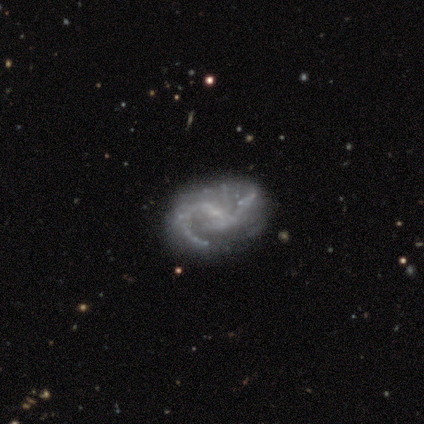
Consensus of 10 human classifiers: A featured or disk galaxy (90%) with a weak bar (78%), 2 (67%) medium (44%) spiral arms (100%) and a small central bulge (56%).

Vote fractions:
- Smooth or featured? featured or disk: 90% / smooth: 10% / star or artifact: 0%
- Edge-on disk? no: 100% / yes: 0%
- Bar? weak: 78% / no: 22% / strong: 0%
- Spiral arms? yes: 100% / no: 0%
- Spiral winding? medium: 44% / tight: 33% / loose: 22%
- Spiral arm count? 2: 67% / 1: 22% / more than 4: 11% / 3: 0% / 4: 0% / can't tell: 0%
- Bulge size? small: 56% / moderate: 22% / none: 22% / dominant: 0% / large: 0%
- Merging? none: 90% / minor disturbance: 10% / major disturbance: 0% / merger: 0%